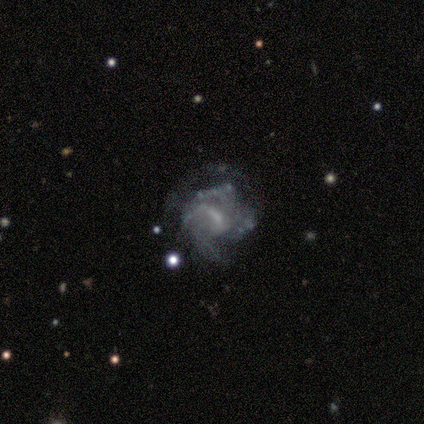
This is likely a featured or disk galaxy (75%). It is clearly not viewed edge-on (100%). Bar: likely no (67%). Spiral arm pattern: clearly yes (100%). Spiral arm count: marginally 1 (33%, tied with 3 and can't tell). Spiral winding: clearly tight (100%). Central bulge: likely small (67%). Merging: likely none (75%).